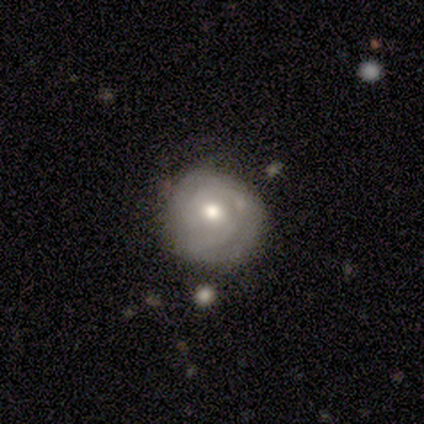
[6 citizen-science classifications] smooth_or_featured: featured or disk (p=0.50) [alt: smooth p=0.33]
disk_edge_on: no (p=1.00)
bar: no (p=1.00)
has_spiral_arms: yes (p=0.67) [alt: no p=0.33]
spiral_winding: tight (p=1.00)
spiral_arm_count: 2 (p=1.00)
bulge_size: moderate (p=1.00)
merging: none (p=0.60) [alt: minor disturbance p=0.40]